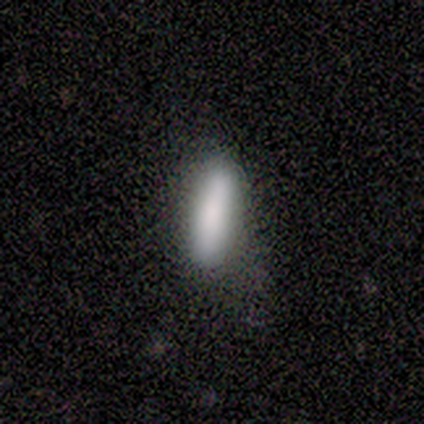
This appears to be a smooth galaxy with no disk features (100%) that is cigar-shaped (100%). Merging: none (100%).